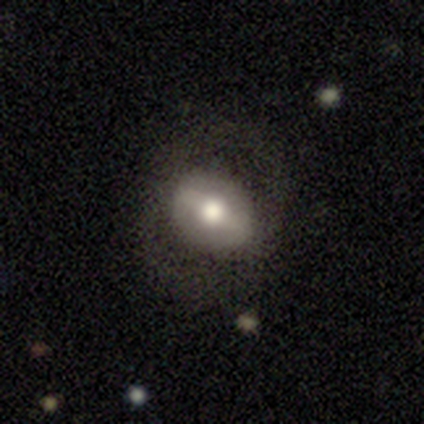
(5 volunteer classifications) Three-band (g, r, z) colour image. It shows a featured or disk galaxy (60%) with a strong bar (100%), 2 (100%) medium (100%) spiral arms (67%) and a moderate central bulge (67%). Merging: none (100%).